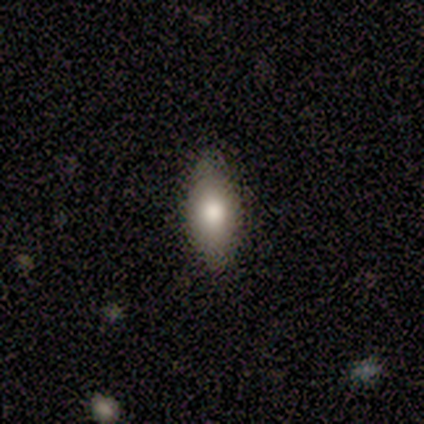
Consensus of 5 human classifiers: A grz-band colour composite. It shows a smooth galaxy with no disk features (60%) that is in between round and cigar-shaped (100%). Merging: none (80%).